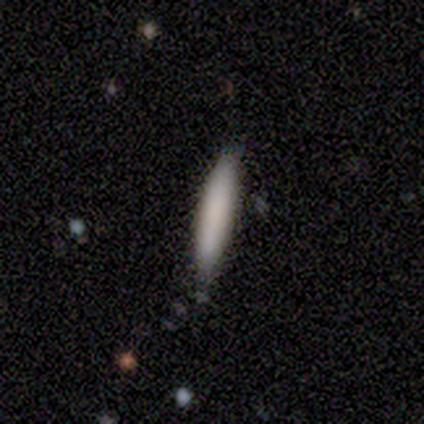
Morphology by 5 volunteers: A smooth galaxy with no disk features (100%) that is cigar-shaped (80%).

Vote fractions:
- Smooth or featured? smooth: 100% / featured or disk: 0% / star or artifact: 0%
- How rounded? cigar-shaped: 80% / in between: 20% / round: 0%
- Merging? none: 60% / minor disturbance: 20% / merger: 20% / major disturbance: 0%